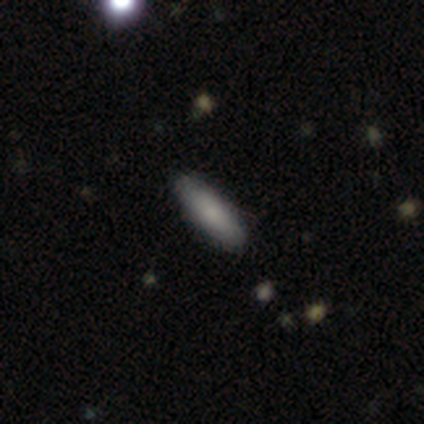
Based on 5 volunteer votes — Overall: smooth (60%; featured or disk 20%). How rounded: in between (67%; cigar-shaped 33%). Merging: none (75%).